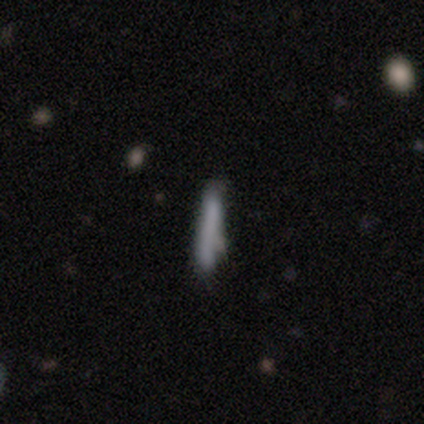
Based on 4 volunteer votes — Smooth or featured?
  - smooth: 100% *
  - featured or disk: 0%
  - star or artifact: 0%
How rounded?
  - cigar-shaped: 100% *
  - round: 0%
  - in between: 0%
Merging?
  - none: 100% *
  - minor disturbance: 0%
  - major disturbance: 0%
  - merger: 0%